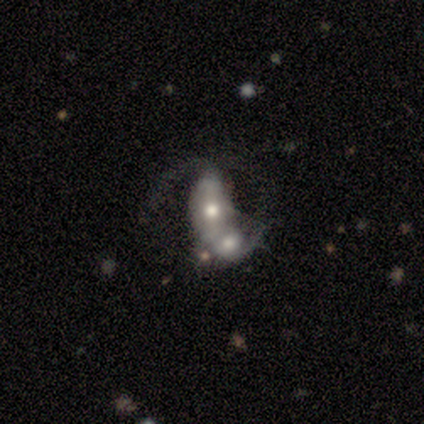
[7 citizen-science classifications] smooth-or-featured: featured or disk: 71% | smooth: 29% | star or artifact: 0%
  disk-edge-on: no: 100% | yes: 0%
    bar: no: 60% | strong: 40% | weak: 0%
    has-spiral-arms: yes: 80% | no: 20%
      spiral-winding: loose: 75% | tight: 25% | medium: 0%
      spiral-arm-count: 2: 50% (tied) | can't tell: 50% (tied) | 1: 0% | 3: 0% | 4: 0% | more than 4: 0%
    bulge-size: moderate: 80% | small: 20% | dominant: 0% | large: 0% | none: 0%
  merging: merger: 100% | none: 0% | minor disturbance: 0% | major disturbance: 0%